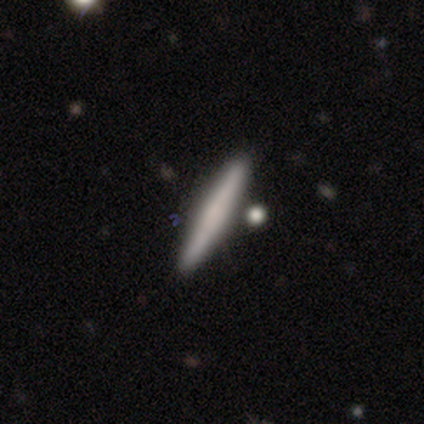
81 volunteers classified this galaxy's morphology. Smooth or featured: smooth — 60% (featured or disk — 31%)
How rounded: cigar-shaped — 98% (in between — 2%)
Merging: none — 77% (merger — 12%)